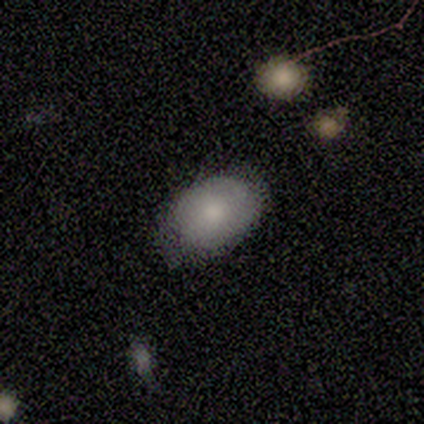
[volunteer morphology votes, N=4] A smooth galaxy with no disk features (50%) that is in between round and cigar-shaped (100%). Merging: none (100%).